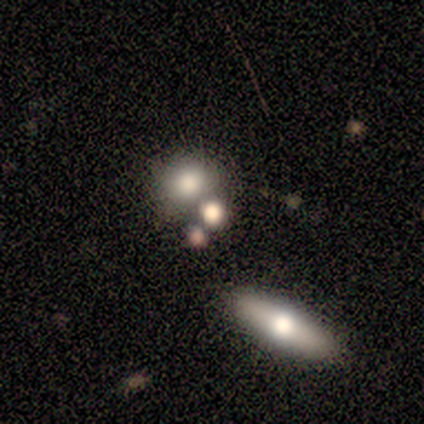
Q: Smooth or featured?
A: smooth (60%); runner-up: star or artifact (40%)
Q: How rounded?
A: round (67%); runner-up: in between (33%)
Q: Merging?
A: none (100%)